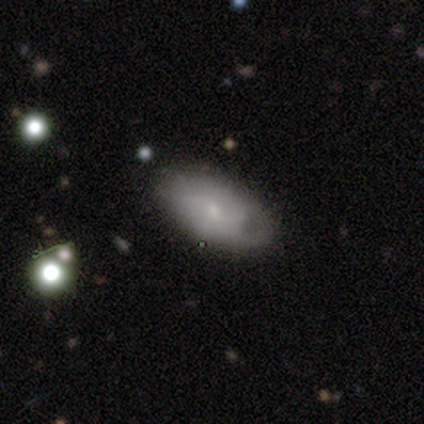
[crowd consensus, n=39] smooth_or_featured: featured or disk (p=0.51) [alt: smooth p=0.46]
disk_edge_on: no (p=0.95) [alt: yes p=0.05]
bar: no (p=0.53) [alt: weak p=0.47]
has_spiral_arms: yes (p=0.68) [alt: no p=0.32]
spiral_winding: medium (p=0.54) [alt: tight p=0.31]
spiral_arm_count: can't tell (p=0.54) [alt: 2 p=0.38]
bulge_size: small (p=0.68) [alt: moderate p=0.21]
merging: none (p=0.55) [alt: minor disturbance p=0.34]